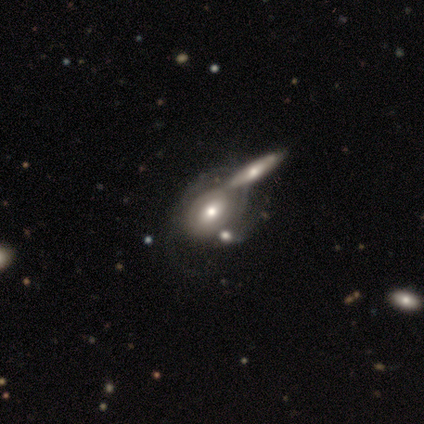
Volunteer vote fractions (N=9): Smooth or featured: featured or disk — 89% (smooth — 11%)
Edge-on disk: no — 100%
Bar: weak — 75% (no — 25%)
Spiral arms: yes — 75% (no — 25%)
Spiral winding: tight — 67% (loose — 33%)
Spiral arm count: 1 — 33% (tied with can't tell — 33%)
Bulge size: moderate — 62% (large — 25%)
Merging: none — 44% (merger — 33%)